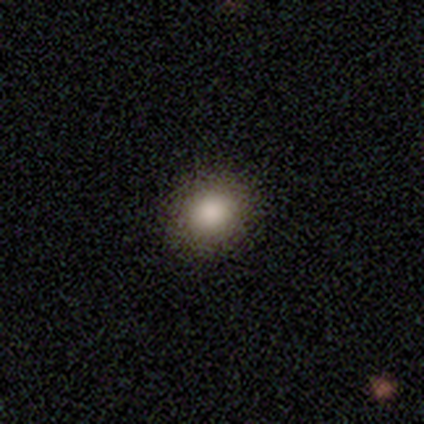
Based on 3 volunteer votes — Smooth or featured?
  - smooth: 67% *
  - star or artifact: 33%
  - featured or disk: 0%
How rounded?
  - round: 100% *
  - in between: 0%
  - cigar-shaped: 0%
Merging?
  - none: 100% *
  - minor disturbance: 0%
  - major disturbance: 0%
  - merger: 0%